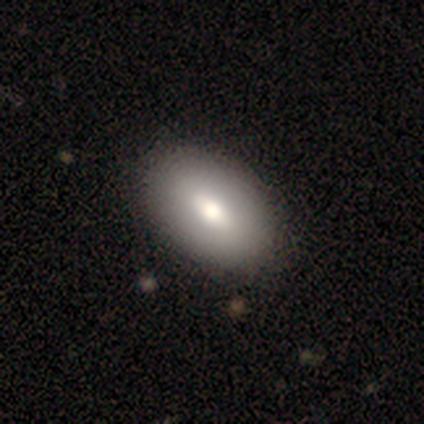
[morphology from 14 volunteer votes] This appears to be a smooth galaxy with no disk features (64%) that is in between round and cigar-shaped (89%). Merging: none (85%).